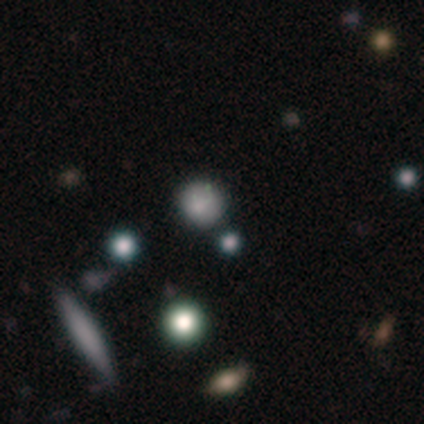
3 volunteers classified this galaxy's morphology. Overall: smooth (67%; featured or disk 33%). How rounded: round (100%). Merging: none (67%; minor disturbance 33%).